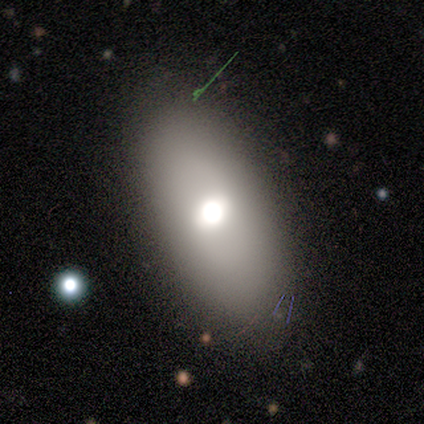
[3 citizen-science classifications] A featured or disk galaxy (67%) viewed edge-on (50%, tied with no) with a rounded central bulge (100%). Merging: none (100%).